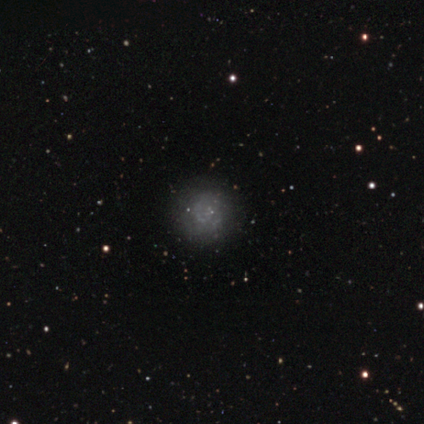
A smooth galaxy with no disk features (45%) that is round (100%).

Vote fractions:
- Smooth or featured? smooth: 45% / featured or disk: 37% / star or artifact: 18%
- How rounded? round: 100% / in between: 0% / cigar-shaped: 0%
- Merging? none: 77% / major disturbance: 13% / minor disturbance: 10% / merger: 0%